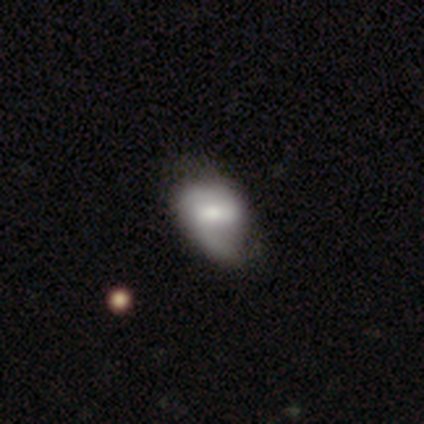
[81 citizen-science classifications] smooth 48% (tied), featured or disk 48% (tied), star or artifact 4%. Down the decision tree: how rounded — in between (74%); merging — minor disturbance (24%).